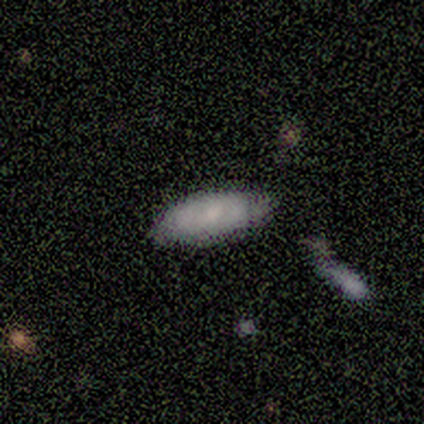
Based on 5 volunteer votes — smooth-or-featured: smooth: 60% | featured or disk: 40% | star or artifact: 0%
  how-rounded: in between: 67% | cigar-shaped: 33% | round: 0%
  merging: none: 80% | minor disturbance: 20% | major disturbance: 0% | merger: 0%